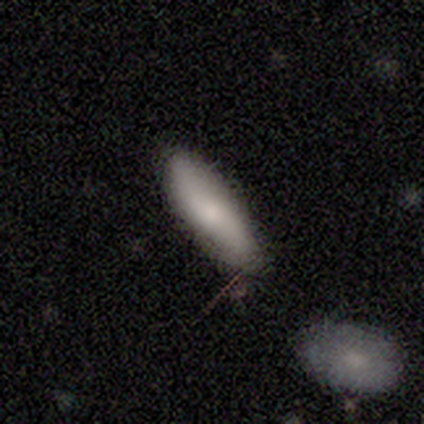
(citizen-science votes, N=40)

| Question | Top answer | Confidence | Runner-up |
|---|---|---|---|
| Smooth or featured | smooth | 65% | featured or disk (20%) |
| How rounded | in between | 62% | cigar-shaped (38%) |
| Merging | none | 41% | minor disturbance (24%) |